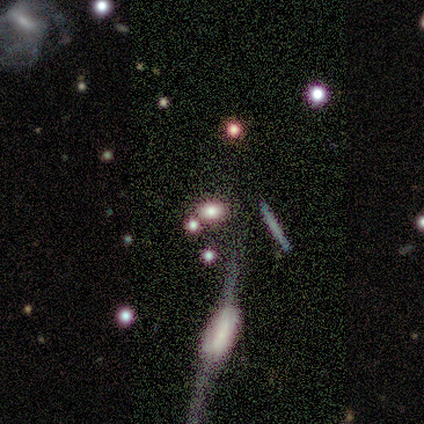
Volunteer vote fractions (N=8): Smooth or featured? star or artifact (50%)